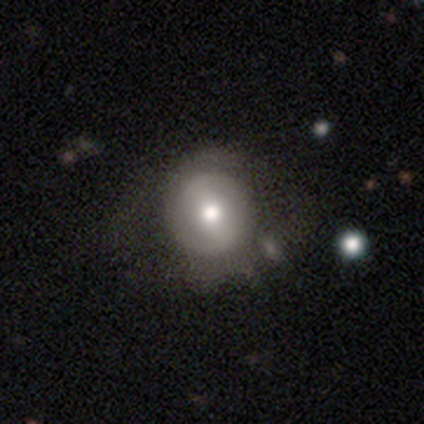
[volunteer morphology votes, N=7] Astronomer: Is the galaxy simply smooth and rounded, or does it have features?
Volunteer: featured or disk — 57% (runner-up: smooth, 43%).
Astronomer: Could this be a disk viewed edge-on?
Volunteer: no — 100%.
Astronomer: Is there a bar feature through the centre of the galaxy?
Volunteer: weak — 75%.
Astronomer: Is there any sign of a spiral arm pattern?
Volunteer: no — 100%.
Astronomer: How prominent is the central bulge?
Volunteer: moderate — 100%.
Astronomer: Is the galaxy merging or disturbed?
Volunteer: none — 86%.